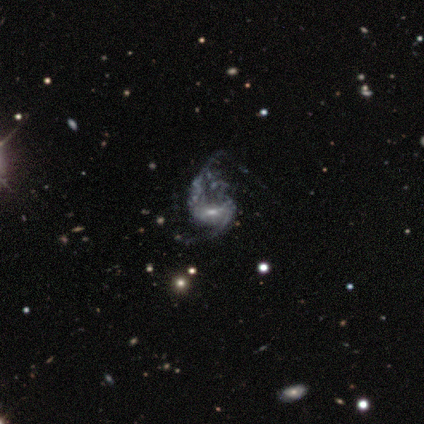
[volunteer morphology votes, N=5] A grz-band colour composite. It shows a featured or disk galaxy (80%) with a weak bar (50%), 2 (75%) loose (75%) spiral arms (100%) and a small central bulge (75%). Merging: minor disturbance (40%, tied with major disturbance).